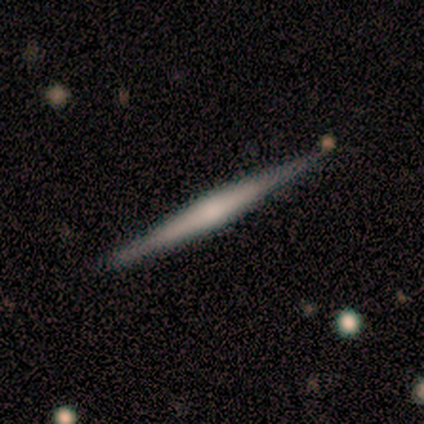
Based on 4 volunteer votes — Overall: featured or disk (75%). Edge-on disk: yes (100%). Edge-on bulge: none (67%; rounded 33%). Merging: none (100%).